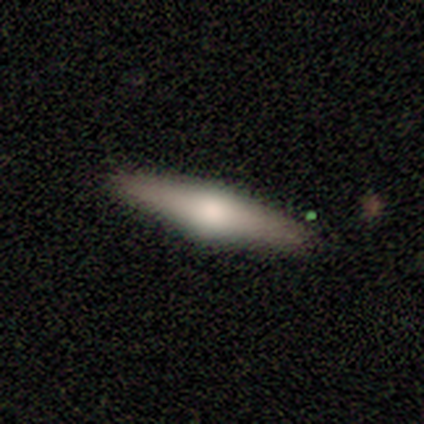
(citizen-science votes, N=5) featured or disk 80%, smooth 20%, star or artifact 0%. Down the decision tree: edge-on disk — yes (100%); edge-on bulge — rounded (75%); merging — none (100%).